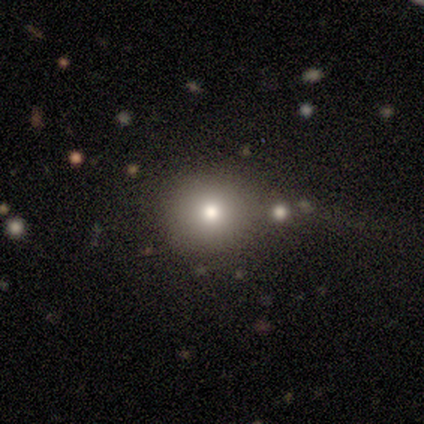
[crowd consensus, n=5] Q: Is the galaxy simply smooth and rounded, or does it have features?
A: smooth — 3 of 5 (60%).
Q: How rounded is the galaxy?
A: round — 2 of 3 (67%).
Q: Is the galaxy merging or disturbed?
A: none — 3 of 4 (75%).